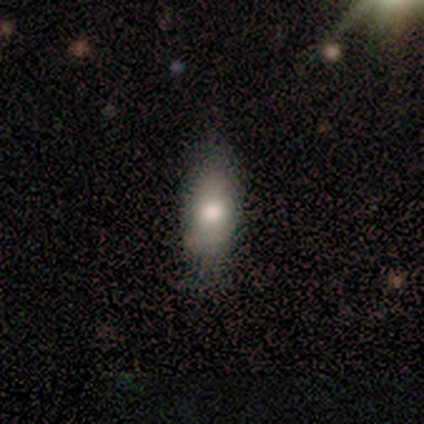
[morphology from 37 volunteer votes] smooth-or-featured: smooth: 76% | featured or disk: 16% | star or artifact: 8%
  how-rounded: in between: 79% | cigar-shaped: 18% | round: 4%
  merging: none: 71% | minor disturbance: 24% | major disturbance: 3% | merger: 3%